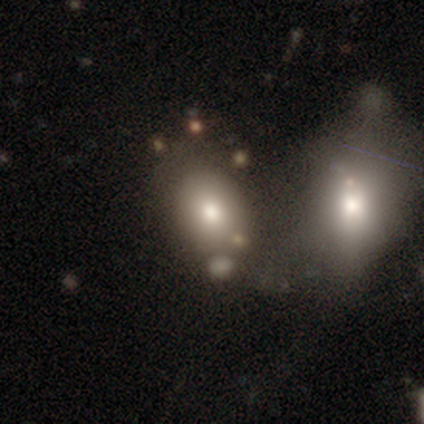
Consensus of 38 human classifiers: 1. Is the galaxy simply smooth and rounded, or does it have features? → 63% smooth, 26% featured or disk, 11% star or artifact.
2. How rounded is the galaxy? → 79% in between, 21% round, 0% cigar-shaped.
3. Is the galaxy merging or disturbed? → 47% merger, 32% none, 18% minor disturbance, 3% major disturbance.